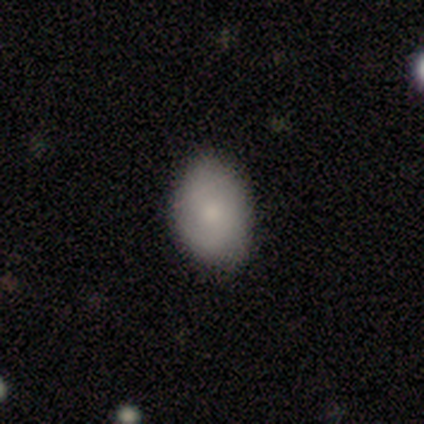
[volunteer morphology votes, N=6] smooth-or-featured: smooth: 100% | featured or disk: 0% | star or artifact: 0%
  how-rounded: in between: 100% | round: 0% | cigar-shaped: 0%
  merging: none: 100% | minor disturbance: 0% | major disturbance: 0% | merger: 0%